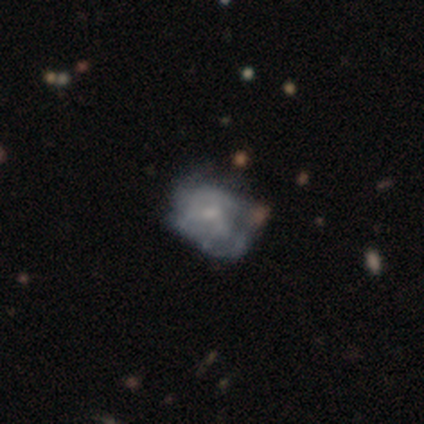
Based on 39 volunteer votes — This is likely a featured or disk galaxy (79%). It is clearly not viewed edge-on (100%). Bar: likely no (71%). Spiral arm pattern: likely yes (68%). Spiral arm count: clearly can't tell (81%). Spiral winding: possibly tight (57%). Central bulge: possibly small (52%). Merging: marginally none (32%).